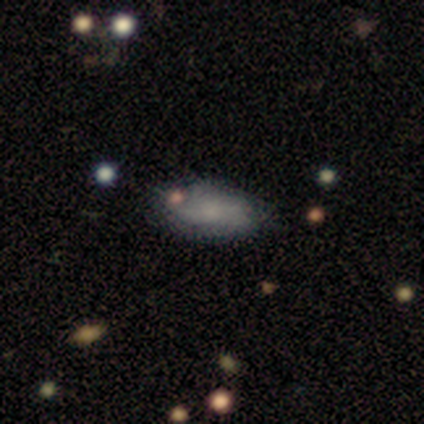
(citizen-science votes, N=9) smooth_or_featured: smooth (p=0.56) [alt: featured or disk p=0.44]
how_rounded: in between (p=0.80) [alt: cigar-shaped p=0.20]
merging: none (p=0.78) [alt: minor disturbance p=0.11]